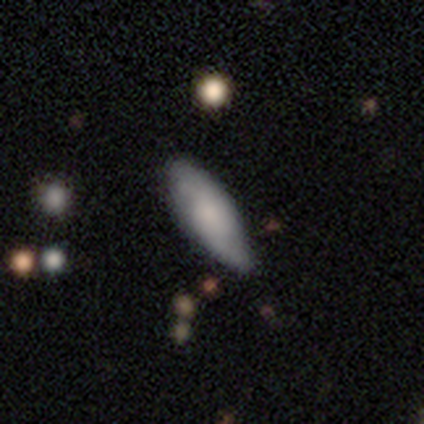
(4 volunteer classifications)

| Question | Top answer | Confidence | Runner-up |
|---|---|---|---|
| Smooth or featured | featured or disk | 100% | — |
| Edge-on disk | no | 100% | — |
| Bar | no | 100% | — |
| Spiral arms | yes | 100% | — |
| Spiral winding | loose | 75% | medium (25%) |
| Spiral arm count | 2 | 100% | — |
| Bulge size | moderate | 50% | tied: none (50%) |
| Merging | none | 100% | — |